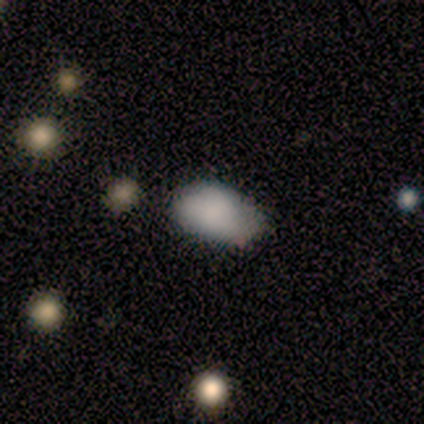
smooth_or_featured: smooth (p=0.83) [alt: featured or disk p=0.08]
how_rounded: in between (p=0.80) [alt: round p=0.10]
merging: none (p=0.73) [alt: minor disturbance p=0.27]